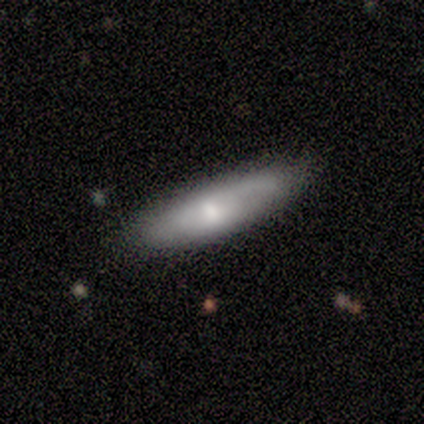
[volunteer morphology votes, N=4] smooth 50% (tied), featured or disk 50% (tied), star or artifact 0%. Down the decision tree: how rounded — cigar-shaped (100%); merging — none (75%).